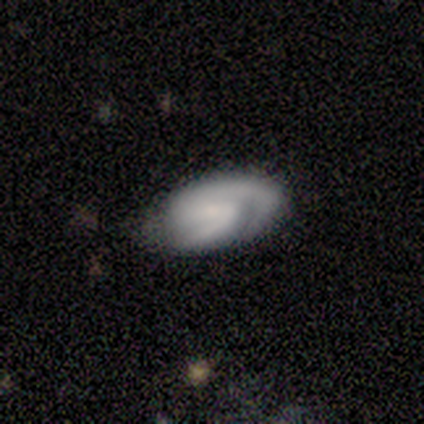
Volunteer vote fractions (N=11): smooth_or_featured: featured or disk (p=0.82) [alt: smooth p=0.18]
disk_edge_on: no (p=1.00)
bar: weak (p=0.56) [alt: no p=0.33]
has_spiral_arms: yes (p=1.00)
spiral_winding: tight (p=0.67) [alt: medium p=0.33]
spiral_arm_count: 2 (p=0.56) [alt: 3 p=0.33]
bulge_size: none (p=0.56) [alt: moderate p=0.33]
merging: none (p=0.64) [alt: minor disturbance p=0.27]